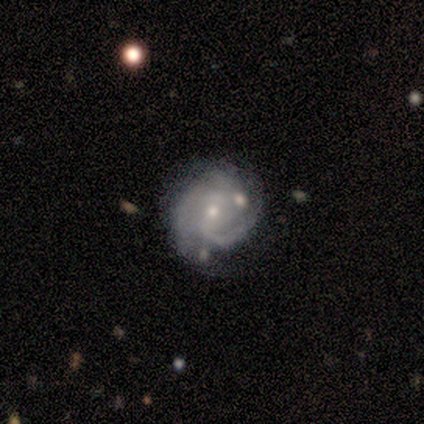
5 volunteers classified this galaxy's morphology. This appears to be a featured or disk galaxy (80%) with no bar (50%), 3 (50%, tied with can't tell) tight (75%) spiral arms (100%) and a small central bulge (75%). Merging: none (50%, tied with minor disturbance).